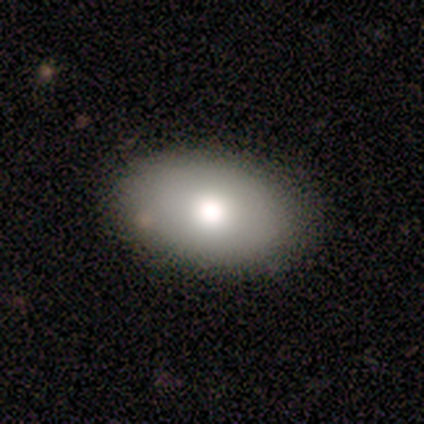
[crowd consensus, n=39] smooth_or_featured: smooth (p=0.72) [alt: featured or disk p=0.18]
how_rounded: in between (p=0.96) [alt: round p=0.04]
merging: none (p=0.86) [alt: minor disturbance p=0.14]